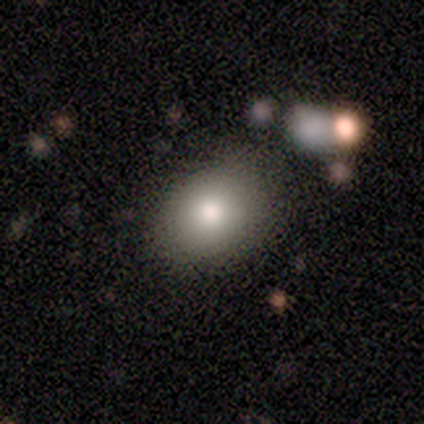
Overall: smooth (100%). How rounded: round (80%). Merging: none (80%).